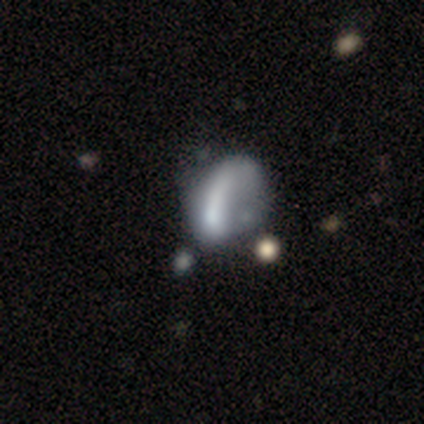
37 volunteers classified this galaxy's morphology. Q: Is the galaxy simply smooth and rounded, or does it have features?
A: featured or disk — 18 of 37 (49%).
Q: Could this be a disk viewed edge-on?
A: no — 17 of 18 (94%).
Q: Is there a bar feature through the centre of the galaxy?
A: no — 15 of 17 (88%).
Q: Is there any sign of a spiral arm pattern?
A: no — 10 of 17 (59%).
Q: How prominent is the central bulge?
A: none — 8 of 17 (47%).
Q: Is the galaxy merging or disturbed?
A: major disturbance — 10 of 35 (29%).